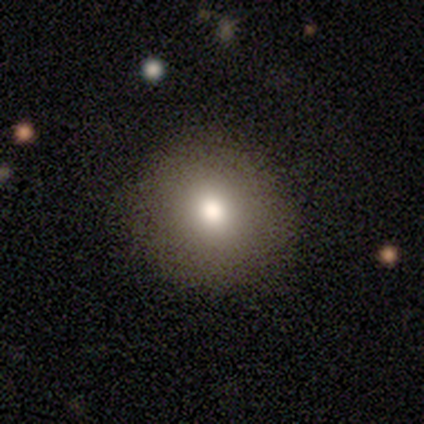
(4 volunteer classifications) Smooth or featured? 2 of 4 (50%, tied with star or artifact) said smooth. How rounded? 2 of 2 (100%) said round. Merging? 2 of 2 (100%) said none.